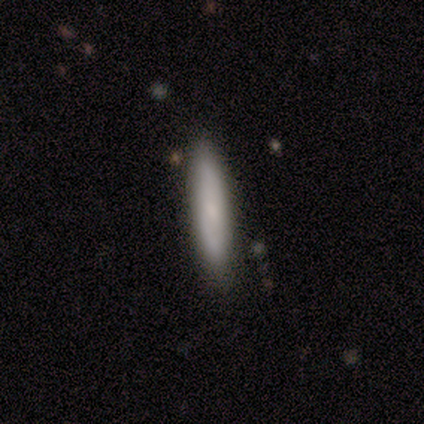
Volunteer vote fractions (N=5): This is clearly a smooth galaxy (100%). How rounded: clearly cigar-shaped (100%). Merging: clearly none (80%).